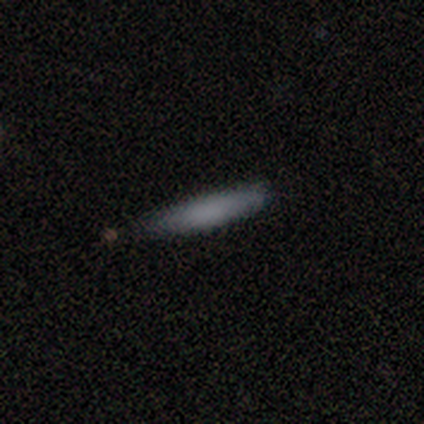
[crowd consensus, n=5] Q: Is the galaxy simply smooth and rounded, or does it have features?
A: smooth — 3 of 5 (60%).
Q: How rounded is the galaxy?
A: cigar-shaped — 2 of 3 (67%).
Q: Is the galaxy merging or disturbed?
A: none — 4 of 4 (100%).